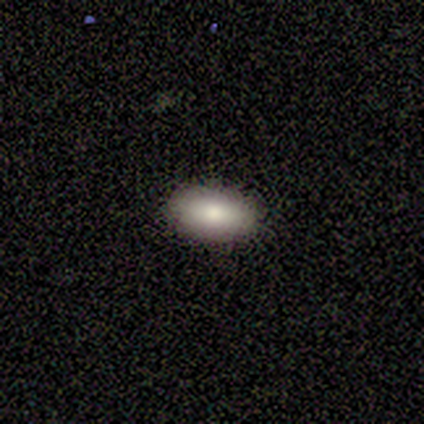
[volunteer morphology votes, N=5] Q: Smooth or featured?
A: smooth (100%)
Q: How rounded?
A: in between (100%)
Q: Merging?
A: none (80%); runner-up: minor disturbance (20%)